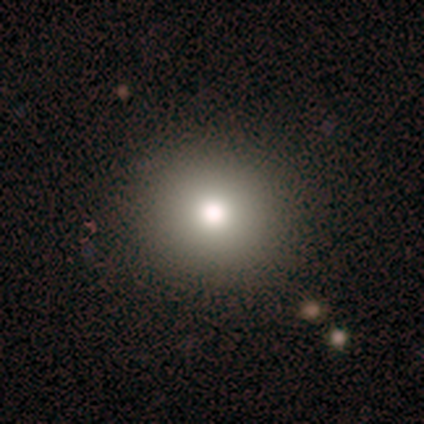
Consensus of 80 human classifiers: This appears to be a smooth galaxy with no disk features (72%) that is round (93%). Merging: none (43%).